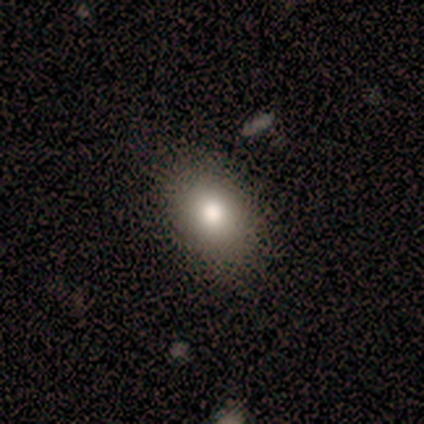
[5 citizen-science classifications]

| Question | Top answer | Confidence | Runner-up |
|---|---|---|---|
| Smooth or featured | smooth | 100% | — |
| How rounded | in between | 100% | — |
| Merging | none | 80% | minor disturbance (20%) |